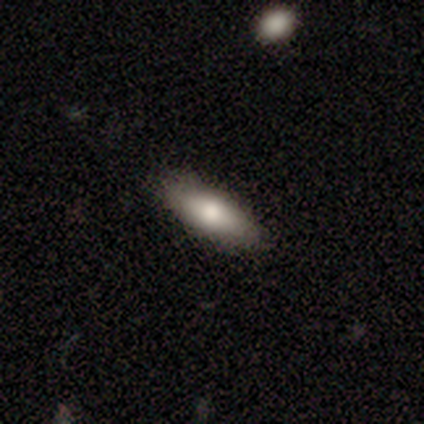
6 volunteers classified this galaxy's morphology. Q: Smooth or featured?
A: smooth (67%); runner-up: featured or disk (17%)
Q: How rounded?
A: in between (50%); tied with: cigar-shaped (50%)
Q: Merging?
A: none (80%); runner-up: minor disturbance (20%)